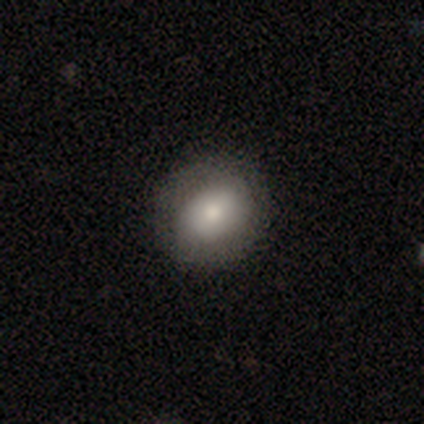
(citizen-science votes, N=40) Q: Smooth or featured?
A: smooth (65%); runner-up: featured or disk (30%)
Q: How rounded?
A: round (62%); runner-up: in between (38%)
Q: Merging?
A: none (66%); runner-up: minor disturbance (8%)